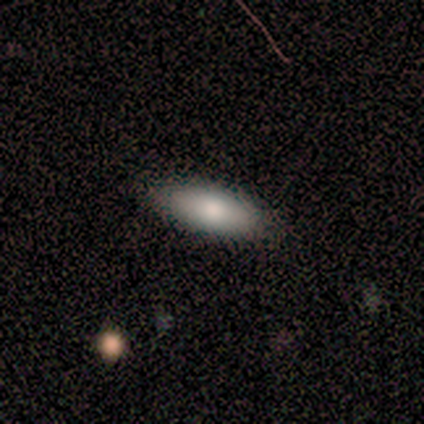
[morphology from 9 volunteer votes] A smooth galaxy with no disk features (100%) that is in between round and cigar-shaped (78%). Merging: none (100%).